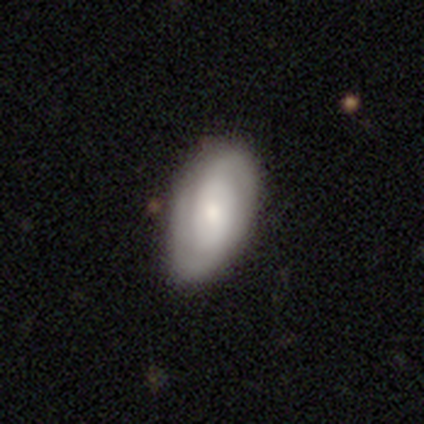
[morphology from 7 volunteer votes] This is likely a featured or disk galaxy (71%). It is clearly not viewed edge-on (100%). Bar: likely weak (60%). Spiral arm pattern: clearly yes (100%). Spiral arm count: clearly 2 (80%). Spiral winding: clearly tight (80%). Central bulge: marginally moderate (40%). Merging: clearly none (86%).